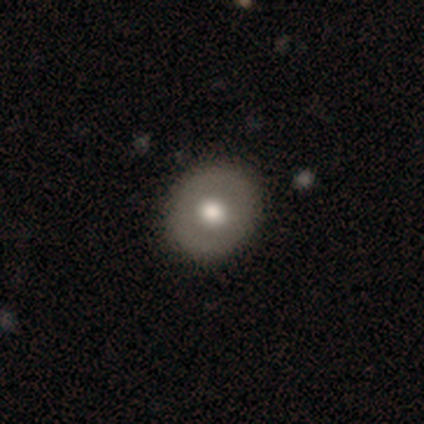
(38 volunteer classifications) This is possibly a smooth galaxy (50%). How rounded: likely round (68%). Merging: likely none (66%).